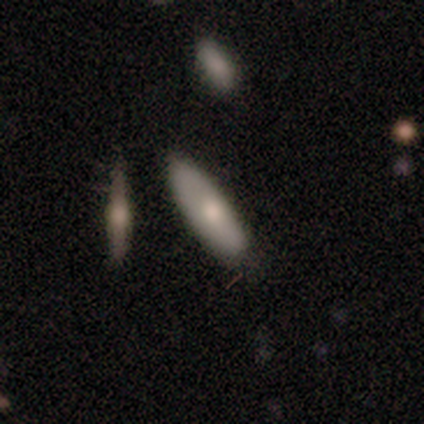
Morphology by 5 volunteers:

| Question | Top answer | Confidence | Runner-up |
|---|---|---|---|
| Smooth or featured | smooth | 60% | featured or disk (40%) |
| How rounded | in between | 100% | — |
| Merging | none | 80% | minor disturbance (20%) |